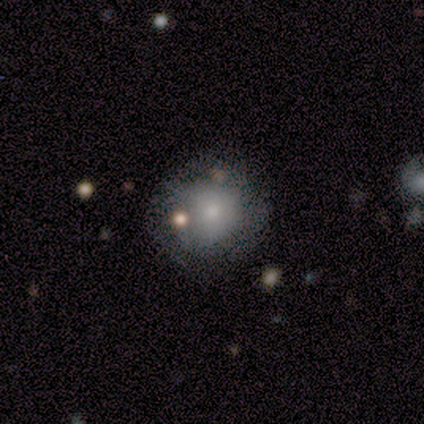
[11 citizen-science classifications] Volunteers were most divided on "spiral arms" (2-way tie): yes: 50%, no: 50%. More confident: edge-on disk — no (100%); spiral winding — tight (100%); spiral arm count — can't tell (100%); bar — no (83%); merging — none (64%); smooth or featured — featured or disk (55%); bulge size — moderate (50%).